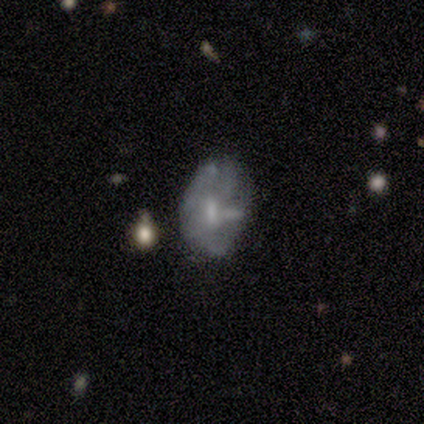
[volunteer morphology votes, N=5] smooth-or-featured: smooth: 60% | featured or disk: 20% | star or artifact: 20%
  how-rounded: in between: 67% | round: 33% | cigar-shaped: 0%
  merging: none: 75% | major disturbance: 25% | minor disturbance: 0% | merger: 0%